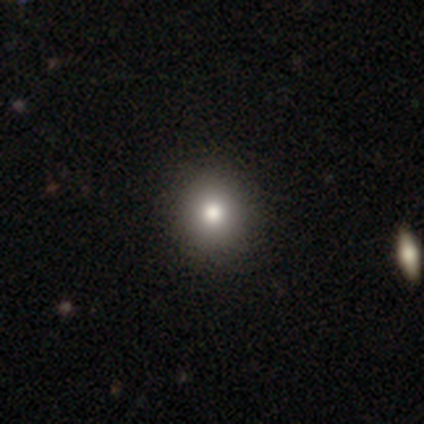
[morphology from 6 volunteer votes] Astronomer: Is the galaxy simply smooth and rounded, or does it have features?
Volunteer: smooth — 83%.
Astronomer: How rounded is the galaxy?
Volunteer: round — 80%.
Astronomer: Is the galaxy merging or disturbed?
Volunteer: none — 100%.